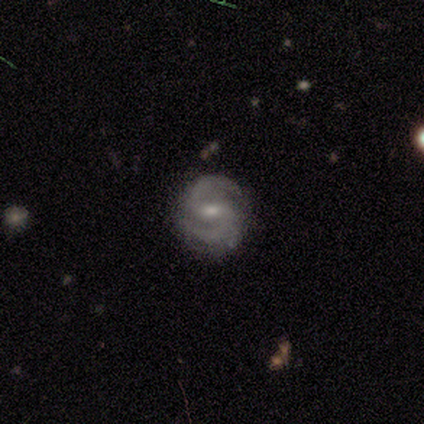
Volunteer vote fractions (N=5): This is clearly a featured or disk galaxy (100%). It is clearly not viewed edge-on (100%). Bar: likely weak (60%). Spiral arm pattern: clearly yes (100%). Spiral arm count: clearly 2 (100%). Spiral winding: clearly medium (80%). Central bulge: likely moderate (60%). Merging: clearly none (100%).